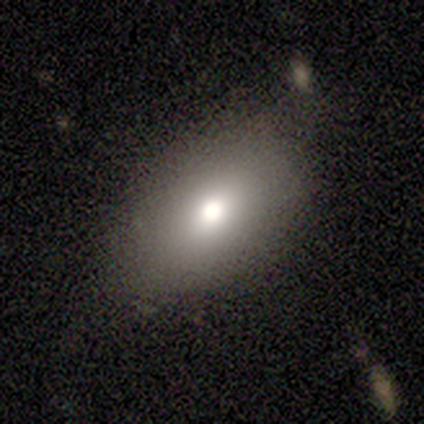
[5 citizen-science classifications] Morphology: type=smooth (60%); roundness=in between (100%); merging=none (60%).